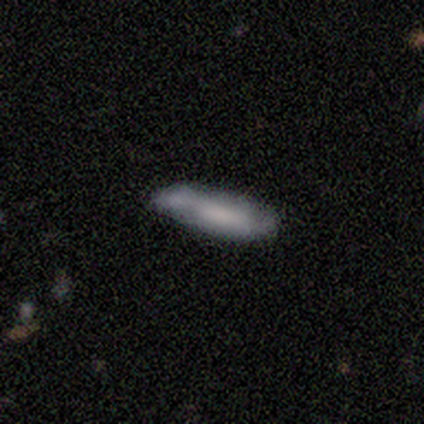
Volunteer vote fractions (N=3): Smooth or featured? smooth (100%)
How rounded? cigar-shaped (100%)
Merging? none (67%)